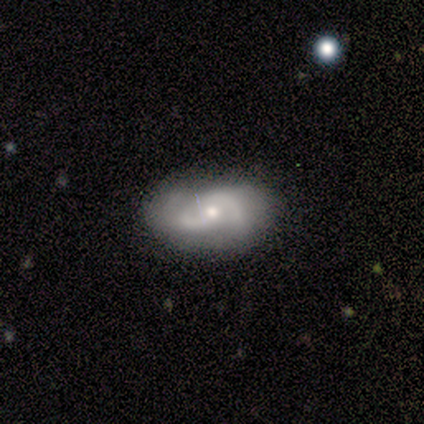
Volunteers were most divided on "spiral winding" (2-way tie): tight: 50%, medium: 50%, loose: 0%; "bulge size" (2-way tie): moderate: 50%, small: 50%, dominant: 0%, large: 0%, none: 0%. More confident: edge-on disk — no (100%); spiral arms — yes (100%); spiral arm count — 2 (100%); smooth or featured — featured or disk (80%); merging — none (80%); bar — no (75%).